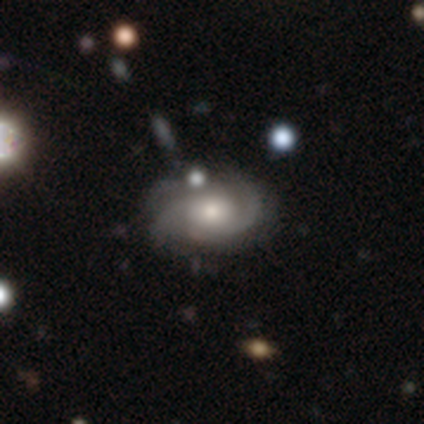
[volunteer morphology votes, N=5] Smooth or featured?
  - featured or disk: 80% *
  - smooth: 20%
  - star or artifact: 0%
Edge-on disk?
  - no: 75% *
  - yes: 25%
Bar?
  - no: 100% *
  - strong: 0%
  - weak: 0%
Spiral arms?
  - yes: 100% *
  - no: 0%
Spiral winding?
  - tight: 67% *
  - medium: 33%
  - loose: 0%
Spiral arm count?
  - 2: 67% *
  - 3: 33%
  - 1: 0%
  - 4: 0%
  - more than 4: 0%
  - can't tell: 0%
Bulge size?
  - moderate: 100% *
  - dominant: 0%
  - large: 0%
  - small: 0%
  - none: 0%
Merging?
  - minor disturbance: 60% *
  - none: 40%
  - major disturbance: 0%
  - merger: 0%